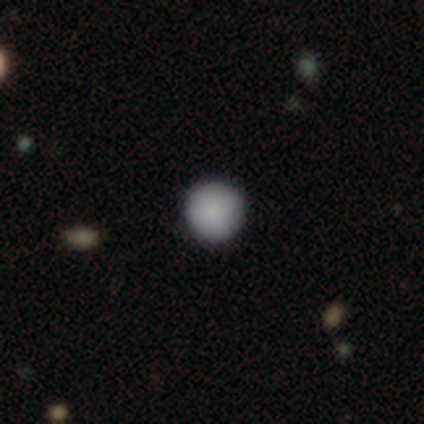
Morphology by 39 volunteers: Overall: smooth (95%). How rounded: round (97%). Merging: none (97%).